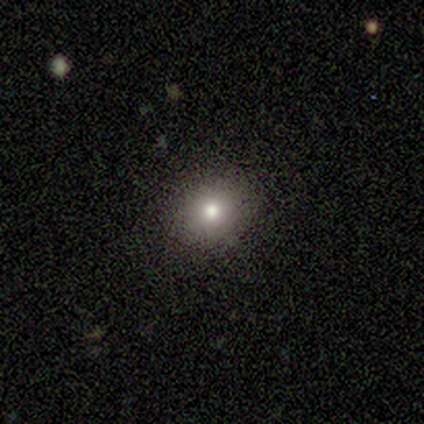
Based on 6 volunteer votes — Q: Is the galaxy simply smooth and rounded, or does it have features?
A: smooth — 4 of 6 (67%).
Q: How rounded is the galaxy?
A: round — 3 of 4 (75%).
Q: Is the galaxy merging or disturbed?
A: minor disturbance — 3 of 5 (60%).